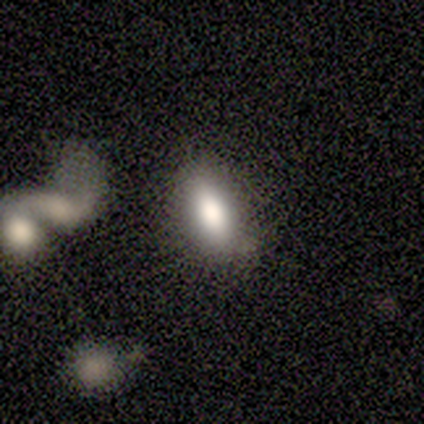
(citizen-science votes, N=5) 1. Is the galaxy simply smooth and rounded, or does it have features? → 100% smooth, 0% featured or disk, 0% star or artifact.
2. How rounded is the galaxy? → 80% in between, 20% cigar-shaped, 0% round.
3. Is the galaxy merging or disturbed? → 100% none, 0% minor disturbance, 0% major disturbance, 0% merger.